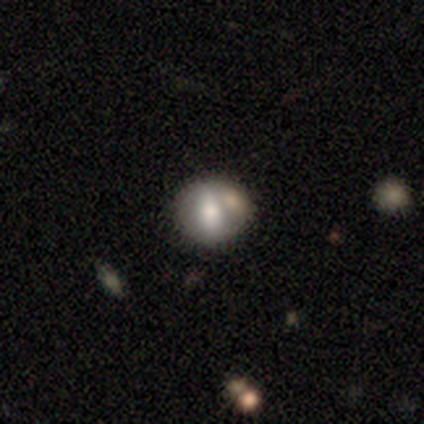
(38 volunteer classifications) Q: Smooth or featured?
A: smooth (58%); runner-up: featured or disk (37%)
Q: How rounded?
A: round (77%); runner-up: in between (23%)
Q: Merging?
A: merger (50%)